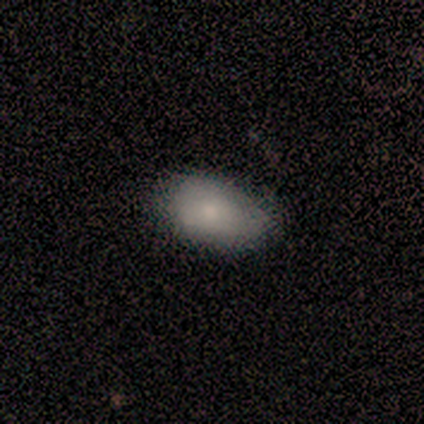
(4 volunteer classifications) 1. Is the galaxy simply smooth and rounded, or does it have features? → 100% smooth, 0% featured or disk, 0% star or artifact.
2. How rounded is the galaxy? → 50% round (tied), 50% in between (tied), 0% cigar-shaped.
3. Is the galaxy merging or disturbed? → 75% none, 25% minor disturbance, 0% major disturbance, 0% merger.